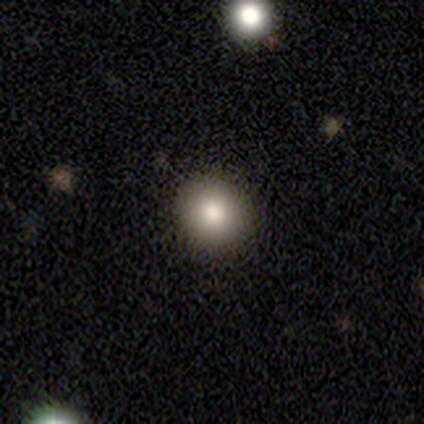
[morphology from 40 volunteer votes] Volunteers were most divided on "smooth or featured": smooth: 70%, star or artifact: 20%, featured or disk: 10%. More confident: merging — none (97%); how rounded — round (86%).